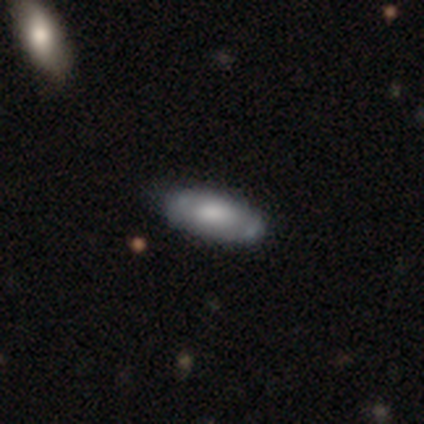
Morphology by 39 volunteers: Smooth or featured? 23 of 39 (59%) said smooth. How rounded? 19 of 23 (83%) said in between. Merging? 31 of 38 (82%) said none.